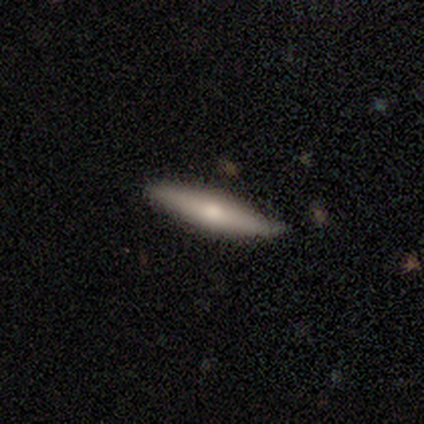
A smooth galaxy with no disk features (62%) that is cigar-shaped (96%). Merging: none (71%).